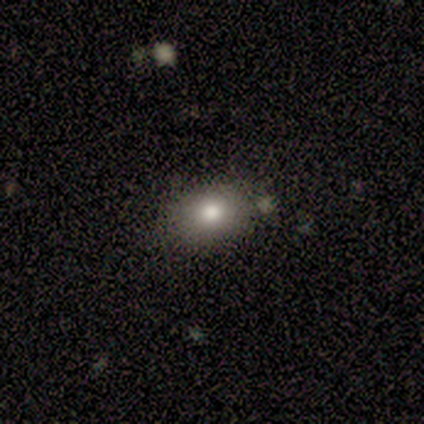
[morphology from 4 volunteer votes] smooth_or_featured: smooth (p=0.75) [alt: star or artifact p=0.25]
how_rounded: in between (p=0.67) [alt: round p=0.33]
merging: none (p=0.67) [alt: major disturbance p=0.33]